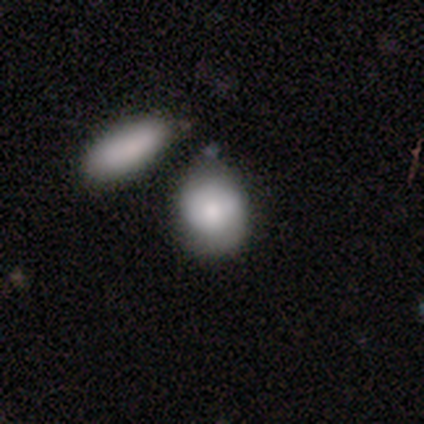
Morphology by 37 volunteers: smooth_or_featured: smooth (p=0.73) [alt: featured or disk p=0.22]
how_rounded: in between (p=0.63) [alt: round p=0.37]
merging: merger (p=0.69)